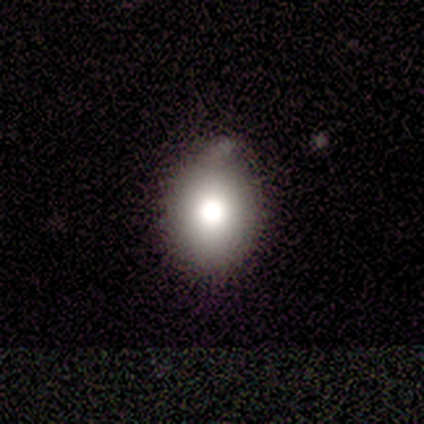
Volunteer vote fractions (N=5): A smooth galaxy with no disk features (100%) that is in between round and cigar-shaped (80%). Merging: none (60%).